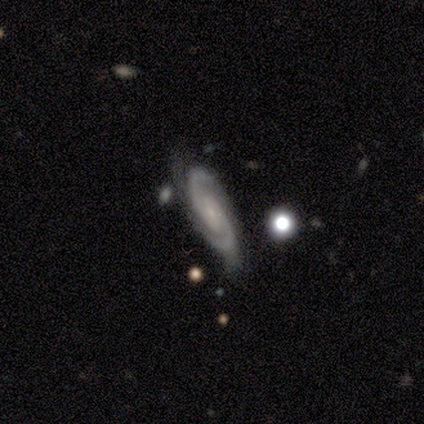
Overall: featured or disk (100%). Edge-on disk: no (80%). Bar: strong (50%; weak 25%). Spiral arms: yes (100%). Spiral arm count: 2 (75%). Spiral winding: tight (50%, tied with medium). Bulge size: small (75%). Merging: none (100%).